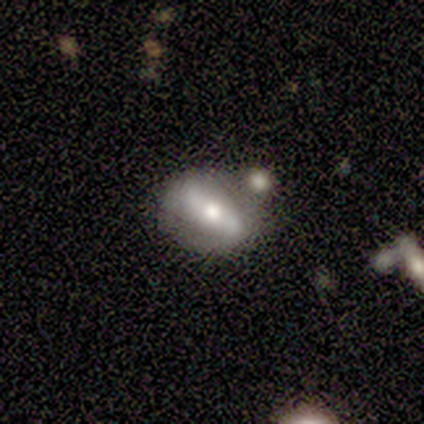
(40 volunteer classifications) Smooth or featured: featured or disk — 70% (smooth — 28%)
Edge-on disk: no — 96% (yes — 4%)
Bar: weak — 48% (strong — 33%)
Spiral arms: yes — 63% (no — 37%)
Spiral winding: loose — 59% (medium — 35%)
Spiral arm count: 2 — 82% (1 — 12%)
Bulge size: moderate — 67% (small — 22%)
Merging: none — 59% (minor disturbance — 31%)